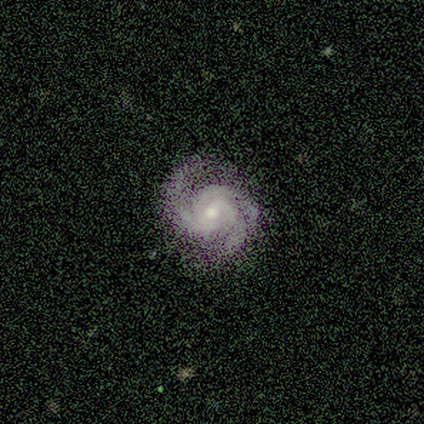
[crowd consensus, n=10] A featured or disk galaxy (100%) with no bar (60%), 2 (50%) medium (60%) spiral arms (100%) and a moderate central bulge (50%, tied with small).

Vote fractions:
- Smooth or featured? featured or disk: 100% / smooth: 0% / star or artifact: 0%
- Edge-on disk? no: 100% / yes: 0%
- Bar? no: 60% / weak: 40% / strong: 0%
- Spiral arms? yes: 100% / no: 0%
- Spiral winding? medium: 60% / tight: 30% / loose: 10%
- Spiral arm count? 2: 50% / 3: 40% / can't tell: 10% / 1: 0% / 4: 0% / more than 4: 0%
- Bulge size? moderate: 50% (tied) / small: 50% (tied) / dominant: 0% / large: 0% / none: 0%
- Merging? none: 70% / minor disturbance: 20% / major disturbance: 10% / merger: 0%